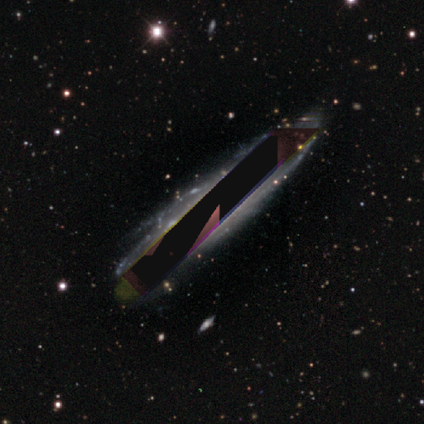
Morphology: type=star or artifact (80%).